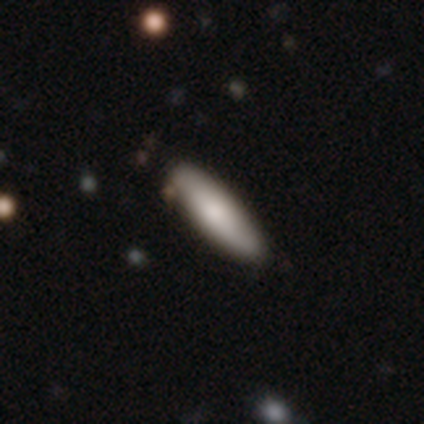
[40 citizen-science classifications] This appears to be a smooth galaxy with no disk features (78%) that is cigar-shaped (52%). Merging: none (92%).